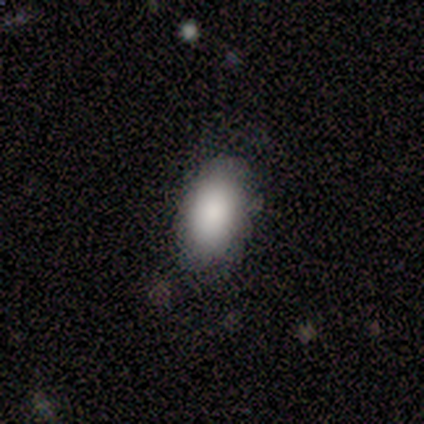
Smooth or featured? smooth (80%)
How rounded? in between (75%)
Merging? none (80%)